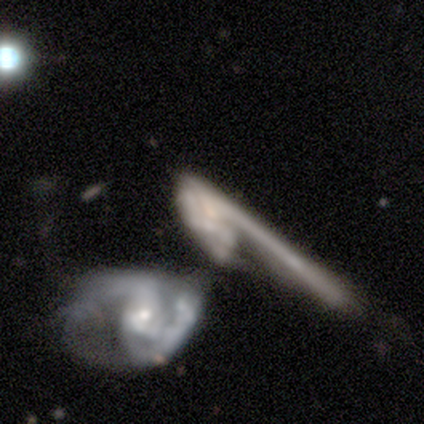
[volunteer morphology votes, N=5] featured or disk 60%, star or artifact 40%, smooth 0%. Down the decision tree: edge-on disk — no (67%); bar — no (100%); spiral arms — no (100%); bulge size — moderate (100%); merging — major disturbance (67%).